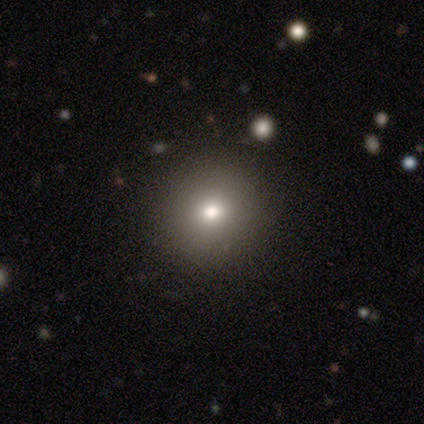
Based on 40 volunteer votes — Smooth or featured? smooth (80%)
How rounded? round (97%)
Merging? none (60%)